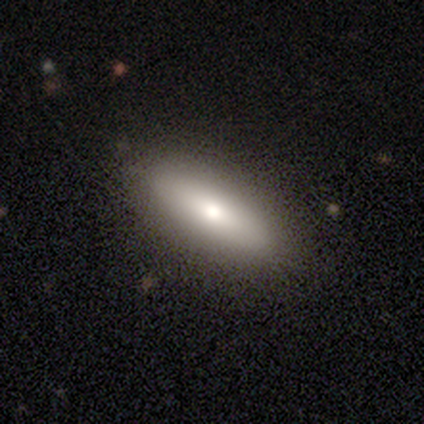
smooth-or-featured: smooth: 65% | featured or disk: 28% | star or artifact: 8%
  how-rounded: in between: 50% (tied) | cigar-shaped: 50% (tied) | round: 0%
  merging: none: 84% | minor disturbance: 11% | major disturbance: 3% | merger: 3%